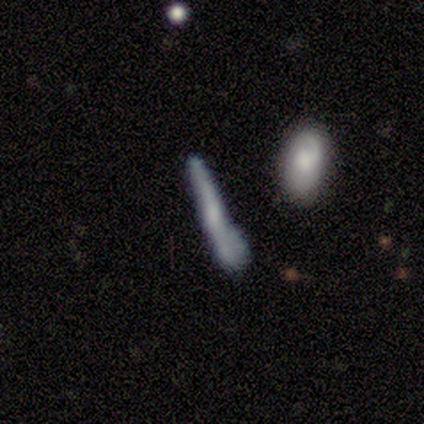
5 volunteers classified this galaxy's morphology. featured or disk 60%, smooth 40%, star or artifact 0%. Down the decision tree: edge-on disk — no (67%); bar — weak (100%); spiral arms — yes (100%); spiral arm count — 2 (50%, tied with can't tell); spiral winding — tight (50%, tied with medium); bulge size — moderate (50%, tied with none); merging — minor disturbance (40%).